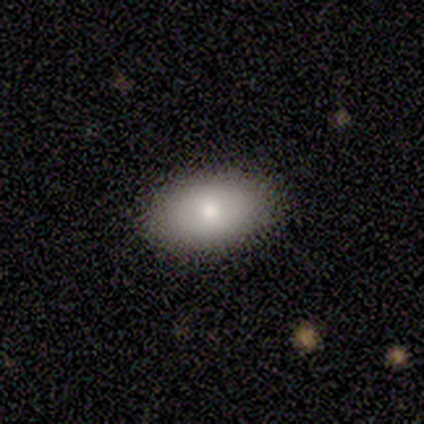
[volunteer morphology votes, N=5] Consensus on every question: smooth or featured — smooth (100%); how rounded — in between (100%); merging — none (100%).